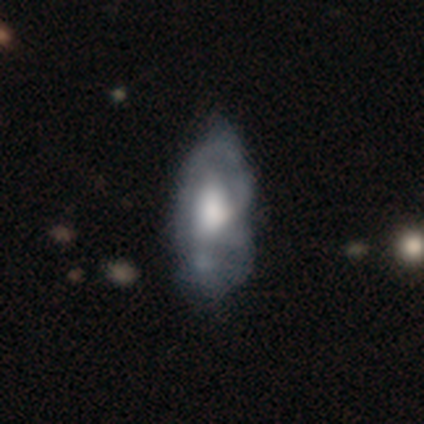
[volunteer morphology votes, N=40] This appears to be a featured or disk galaxy (60%) with no bar (75%), no spiral arms (54%) and a large central bulge (50%). Merging: minor disturbance (21%, tied with major disturbance).